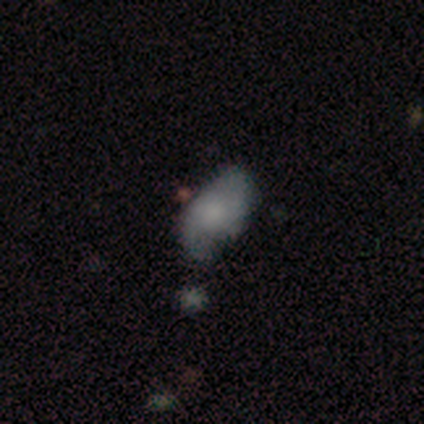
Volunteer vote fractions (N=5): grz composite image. It shows a smooth galaxy with no disk features (80%) that is in between round and cigar-shaped (100%). Merging: none (60%).